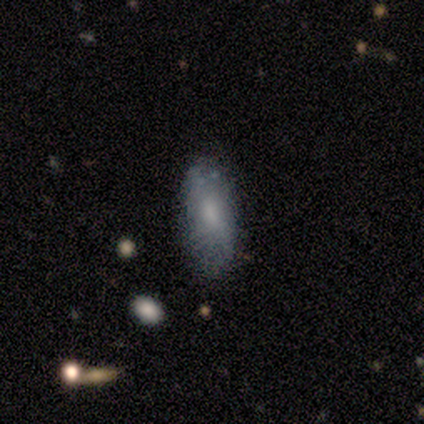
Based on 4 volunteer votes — smooth-or-featured: smooth: 75% | featured or disk: 25% | star or artifact: 0%
  how-rounded: in between: 100% | round: 0% | cigar-shaped: 0%
  merging: none: 75% | minor disturbance: 25% | major disturbance: 0% | merger: 0%